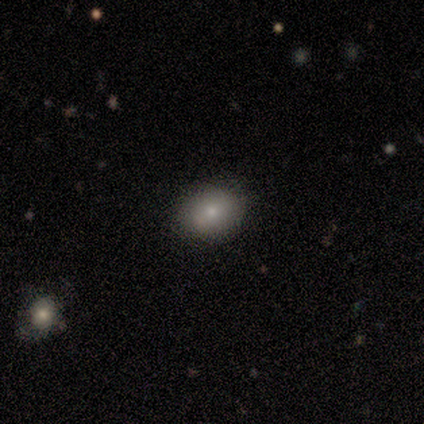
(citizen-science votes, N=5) This is clearly a smooth galaxy (100%). How rounded: clearly round (80%). Merging: clearly none (100%).